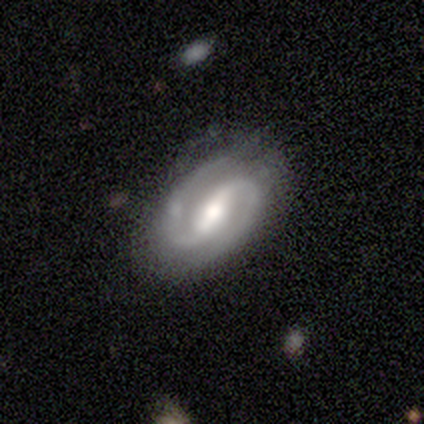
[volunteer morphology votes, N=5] Smooth or featured: featured or disk — 100%
Edge-on disk: no — 100%
Bar: strong — 80% (no — 20%)
Spiral arms: yes — 100%
Spiral winding: medium — 80% (tight — 20%)
Spiral arm count: 2 — 100%
Bulge size: moderate — 60% (large — 20%)
Merging: none — 80% (minor disturbance — 20%)